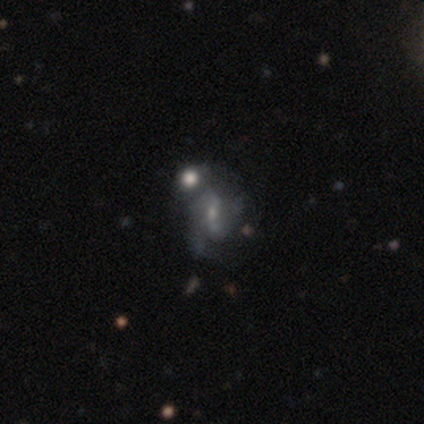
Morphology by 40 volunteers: Smooth or featured: featured or disk — 68% (smooth — 20%)
Edge-on disk: no — 100%
Bar: no — 44% (weak — 33%)
Spiral arms: yes — 78% (no — 22%)
Spiral winding: medium — 38% (tied with loose — 38%)
Spiral arm count: 2 — 52% (can't tell — 29%)
Bulge size: small — 67% (moderate — 22%)
Merging: merger — 40% (none — 29%)